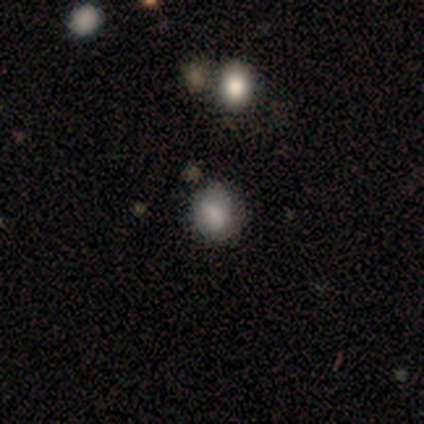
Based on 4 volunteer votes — Morphology: type=smooth (100%); roundness=round (75%); merging=none (100%).